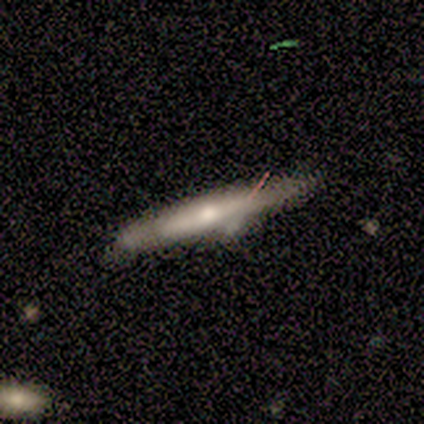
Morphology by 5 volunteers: Q: Smooth or featured?
A: smooth (80%); runner-up: featured or disk (20%)
Q: How rounded?
A: cigar-shaped (100%)
Q: Merging?
A: none (40%); tied with: minor disturbance (40%)